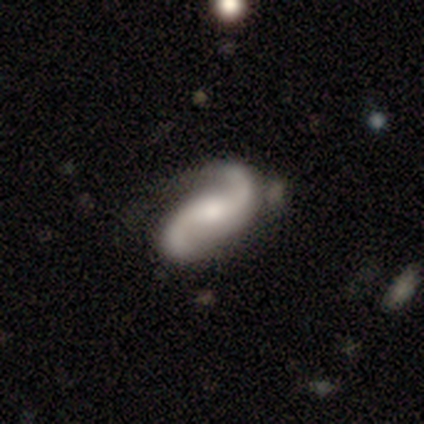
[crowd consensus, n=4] Morphology: type=featured or disk (100%); edge-on=no (100%); bar=no (75%); spiral arms=yes (100%); winding=loose (100%); arm count=2 (100%); bulge=small (50%); merging=none (75%).